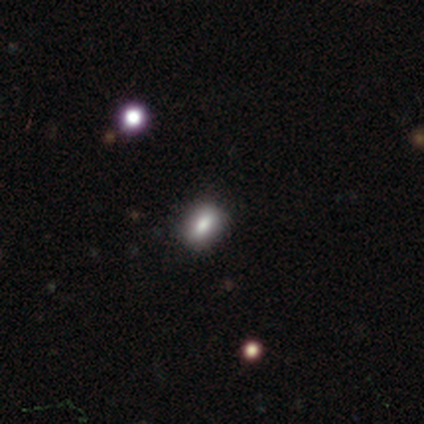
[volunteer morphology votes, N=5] smooth 100%, featured or disk 0%, star or artifact 0%. Down the decision tree: how rounded — in between (80%); merging — none (100%).